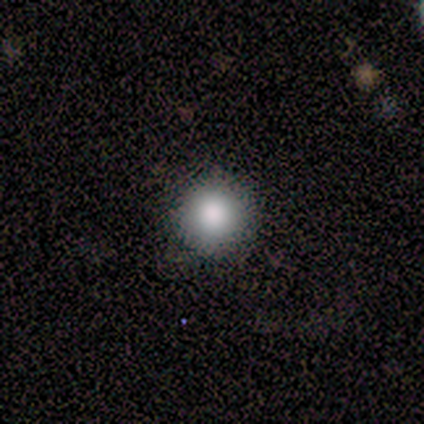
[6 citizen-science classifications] smooth-or-featured: smooth: 83% | featured or disk: 17% | star or artifact: 0%
  how-rounded: round: 100% | in between: 0% | cigar-shaped: 0%
  merging: none: 100% | minor disturbance: 0% | major disturbance: 0% | merger: 0%